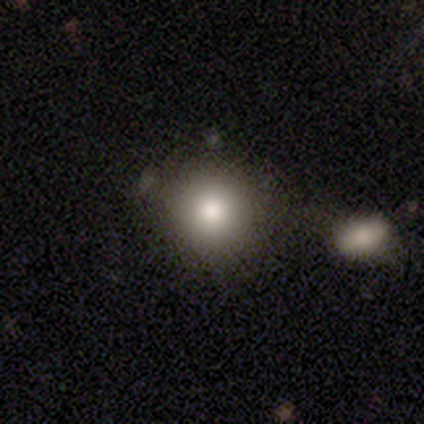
Morphology: type=smooth (79%); roundness=round (93%); merging=none (74%).